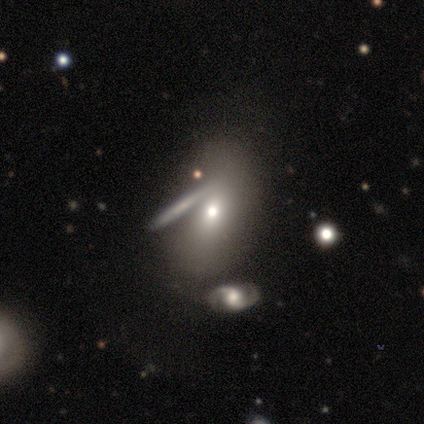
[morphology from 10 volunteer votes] This appears to be a smooth galaxy with no disk features (40%, tied with featured or disk) that is in between round and cigar-shaped (100%). Merging: none (62%).